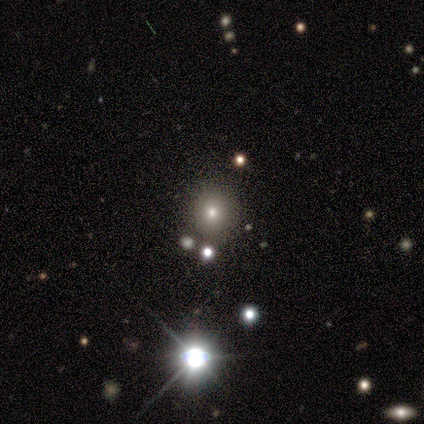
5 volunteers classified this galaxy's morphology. A smooth galaxy with no disk features (60%) that is round (67%). Merging: none (67%).